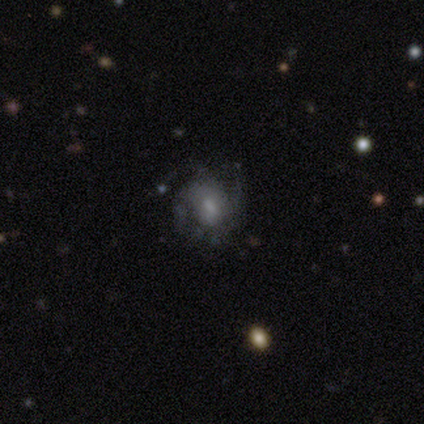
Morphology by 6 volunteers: Smooth or featured? 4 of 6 (67%) said featured or disk. Edge-on disk? 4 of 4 (100%) said no. Bar? 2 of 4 (50%, tied with no) said weak. Spiral arms? 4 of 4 (100%) said yes. Spiral winding? 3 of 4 (75%) said medium. Spiral arm count? 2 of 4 (50%) said 3. Bulge size? 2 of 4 (50%, tied with small) said moderate. Merging? 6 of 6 (100%) said none.